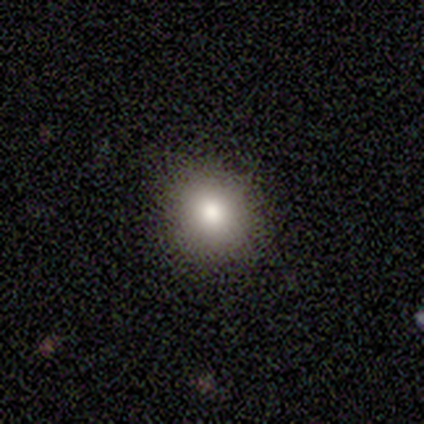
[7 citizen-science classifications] Smooth or featured: smooth — 71% (star or artifact — 29%)
How rounded: round — 80% (in between — 20%)
Merging: none — 80% (major disturbance — 20%)